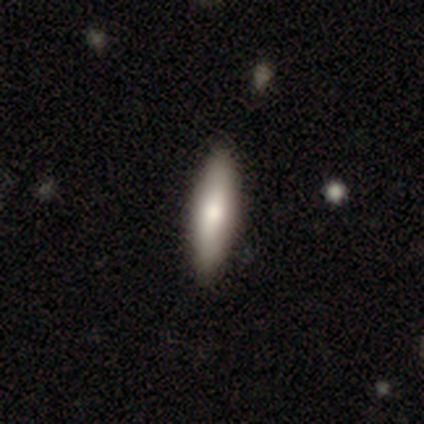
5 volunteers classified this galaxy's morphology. This is likely a featured or disk galaxy (60%). It is clearly viewed edge-on (100%). Edge-on bulge: clearly rounded (100%). Merging: clearly none (80%).